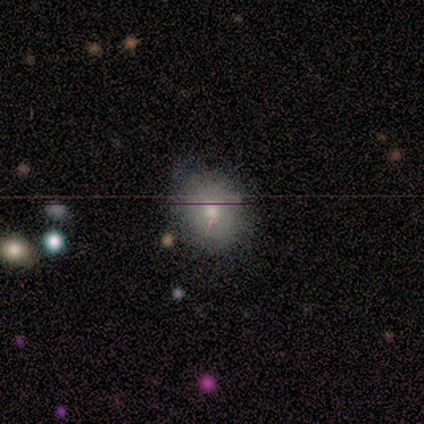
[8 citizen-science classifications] This is possibly a smooth galaxy (50%). How rounded: likely round (75%). Merging: clearly none (100%).